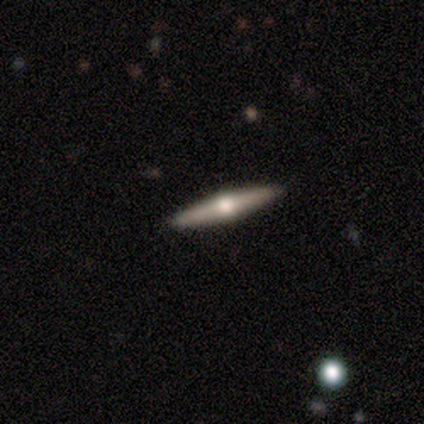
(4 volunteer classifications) A featured or disk galaxy (100%) viewed edge-on (100%) with a rounded central bulge (100%). Merging: minor disturbance (50%).